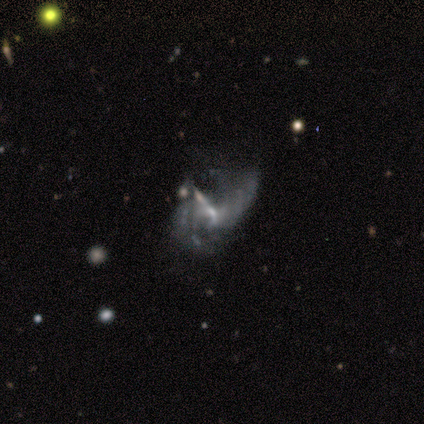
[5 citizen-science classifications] Q: Smooth or featured?
A: featured or disk (60%); runner-up: smooth (20%)
Q: Edge-on disk?
A: no (100%)
Q: Bar?
A: weak (67%); runner-up: no (33%)
Q: Spiral arms?
A: yes (67%); runner-up: no (33%)
Q: Spiral winding?
A: medium (100%)
Q: Spiral arm count?
A: 3 (50%); tied with: 4 (50%)
Q: Bulge size?
A: small (67%); runner-up: moderate (33%)
Q: Merging?
A: major disturbance (50%); runner-up: minor disturbance (25%)